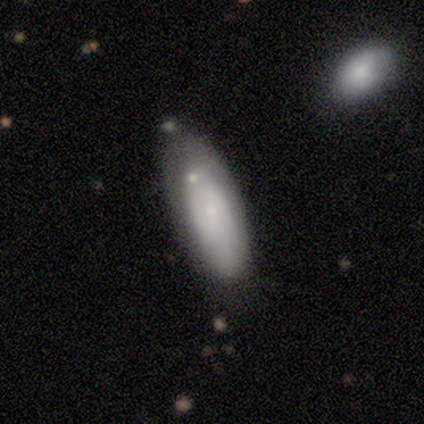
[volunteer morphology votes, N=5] type=smooth (80%); roundness=in between (100%); merging=none (50%).